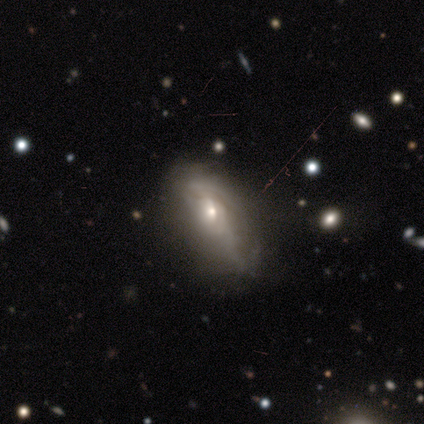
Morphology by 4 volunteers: smooth-or-featured: smooth: 50% (tied) | featured or disk: 50% (tied) | star or artifact: 0%
  how-rounded: in between: 50% (tied) | cigar-shaped: 50% (tied) | round: 0%
  merging: none: 50% (tied) | major disturbance: 50% (tied) | minor disturbance: 0% | merger: 0%